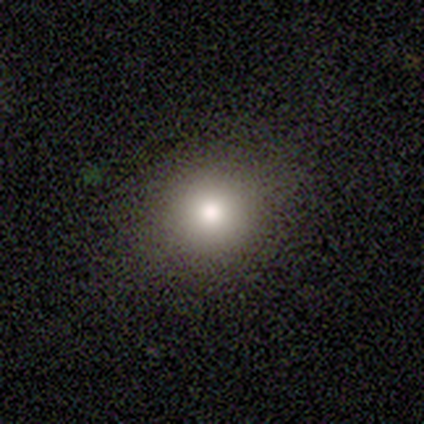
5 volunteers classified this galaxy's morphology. Smooth or featured: smooth — 100%
How rounded: round — 80% (in between — 20%)
Merging: none — 40% (tied with minor disturbance — 40%)